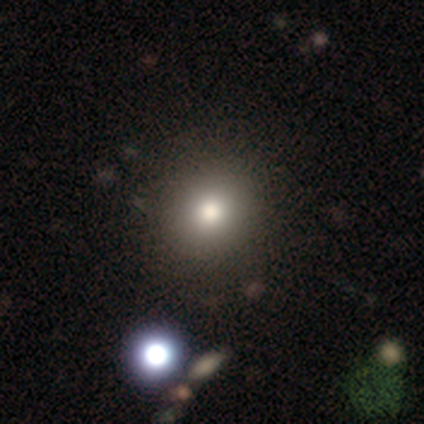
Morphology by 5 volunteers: A smooth galaxy with no disk features (80%) that is round (100%).

Vote fractions:
- Smooth or featured? smooth: 80% / star or artifact: 20% / featured or disk: 0%
- How rounded? round: 100% / in between: 0% / cigar-shaped: 0%
- Merging? none: 100% / minor disturbance: 0% / major disturbance: 0% / merger: 0%